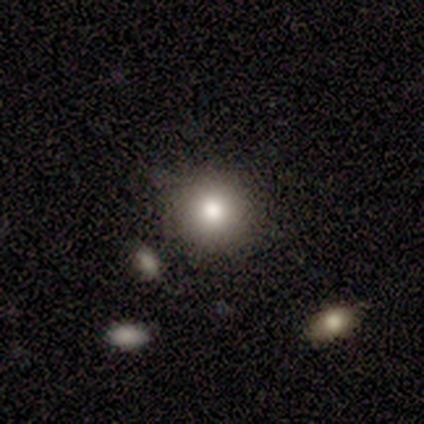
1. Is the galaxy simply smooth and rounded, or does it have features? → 95% smooth, 5% star or artifact, 0% featured or disk.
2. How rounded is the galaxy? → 89% round, 11% in between, 0% cigar-shaped.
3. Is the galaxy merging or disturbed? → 69% none, 29% minor disturbance, 3% merger, 0% major disturbance.